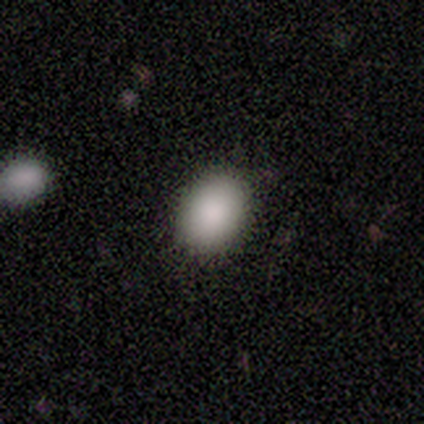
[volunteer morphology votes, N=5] smooth 80%, featured or disk 20%, star or artifact 0%. Down the decision tree: how rounded — in between (100%); merging — none (100%).